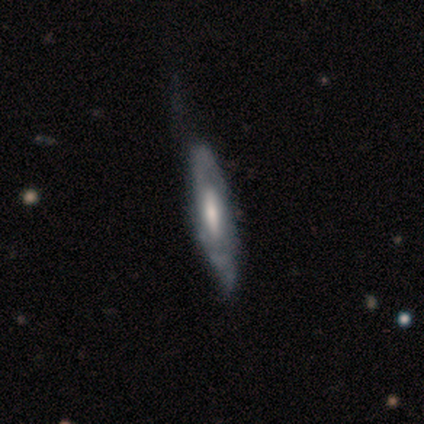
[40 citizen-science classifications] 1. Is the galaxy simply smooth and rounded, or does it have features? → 78% featured or disk, 20% smooth, 2% star or artifact.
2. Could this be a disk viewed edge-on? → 52% no, 48% yes.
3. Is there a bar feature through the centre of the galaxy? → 44% no, 31% strong, 25% weak.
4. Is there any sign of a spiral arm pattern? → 50% yes (tied), 50% no (tied).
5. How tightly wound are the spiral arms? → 50% medium, 38% tight, 12% loose.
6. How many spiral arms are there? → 50% 2 (tied), 50% can't tell (tied), 0% 1, 0% 3, 0% 4, 0% more than 4.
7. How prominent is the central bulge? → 38% small, 31% moderate, 19% large, 12% none, 0% dominant.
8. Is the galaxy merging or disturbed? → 44% none, 31% minor disturbance, 10% major disturbance, 3% merger.